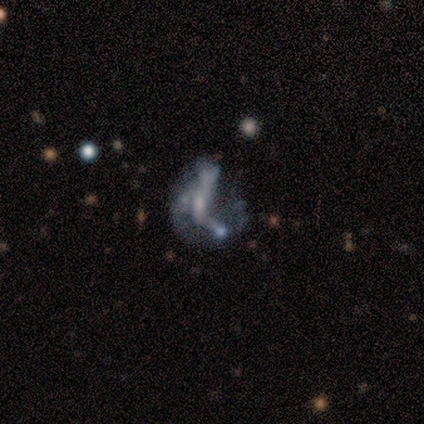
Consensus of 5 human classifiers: Volunteers were most divided on "spiral arms" (2-way tie): yes: 50%, no: 50%; "spiral arm count" (2-way tie): 2: 50%, can't tell: 50%, 1: 0%, 3: 0%, 4: 0%, more than 4: 0%. More confident: edge-on disk — no (100%); spiral winding — loose (100%); smooth or featured — featured or disk (80%); bulge size — small (75%); merging — major disturbance (75%); bar — weak (50%).